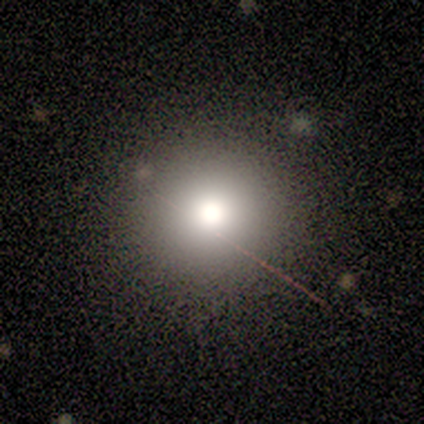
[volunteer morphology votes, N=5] Smooth or featured?
  - smooth: 60% *
  - star or artifact: 40%
  - featured or disk: 0%
How rounded?
  - round: 100% *
  - in between: 0%
  - cigar-shaped: 0%
Merging?
  - none: 100% *
  - minor disturbance: 0%
  - major disturbance: 0%
  - merger: 0%